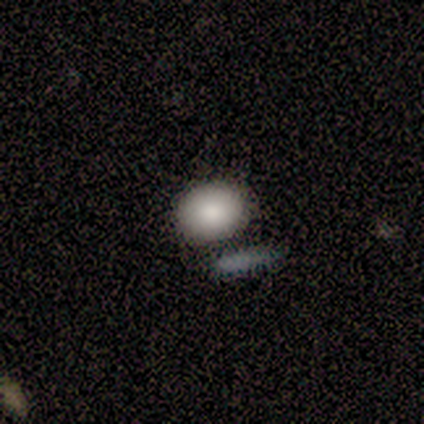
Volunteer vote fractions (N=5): Overall: smooth (60%; featured or disk 20%). How rounded: in between (67%; round 33%). Merging: none (75%).